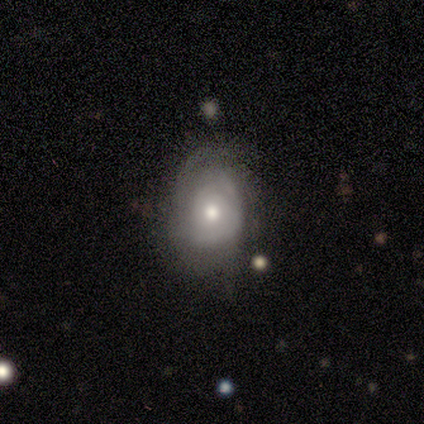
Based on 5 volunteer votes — Q: Smooth or featured?
A: featured or disk (80%); runner-up: smooth (20%)
Q: Edge-on disk?
A: no (100%)
Q: Bar?
A: no (75%); runner-up: weak (25%)
Q: Spiral arms?
A: yes (50%); tied with: no (50%)
Q: Spiral winding?
A: medium (50%); tied with: loose (50%)
Q: Spiral arm count?
A: 2 (50%); tied with: 4 (50%)
Q: Bulge size?
A: moderate (75%); runner-up: large (25%)
Q: Merging?
A: minor disturbance (60%); runner-up: none (40%)